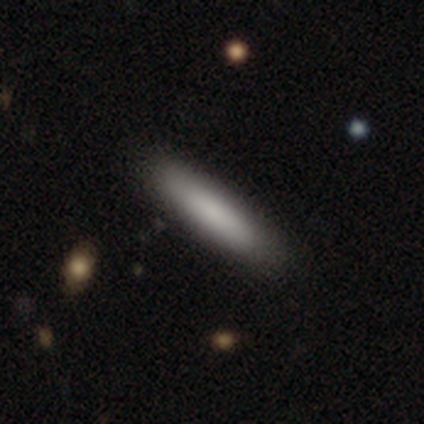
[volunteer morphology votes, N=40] smooth_or_featured: smooth (p=0.80) [alt: featured or disk p=0.10]
how_rounded: cigar-shaped (p=0.78) [alt: in between p=0.22]
merging: none (p=0.67) [alt: merger p=0.06]